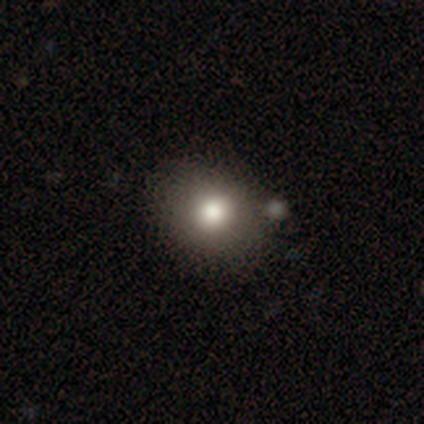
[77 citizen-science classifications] Overall: smooth (81%). How rounded: round (69%; in between 31%). Merging: none (38%; merger 13%).